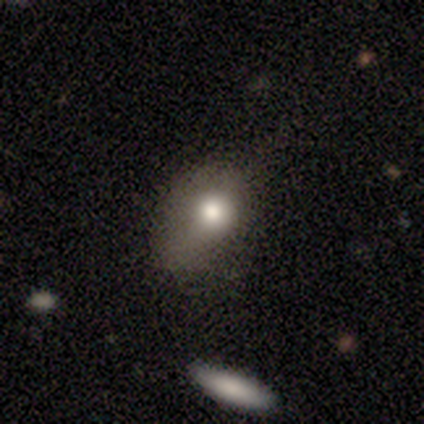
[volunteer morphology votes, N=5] type=featured or disk (60%); edge-on=no (67%); bar=no (100%); spiral arms=no (100%); bulge=small (50%, tied with none); merging=none (40%, tied with major disturbance).